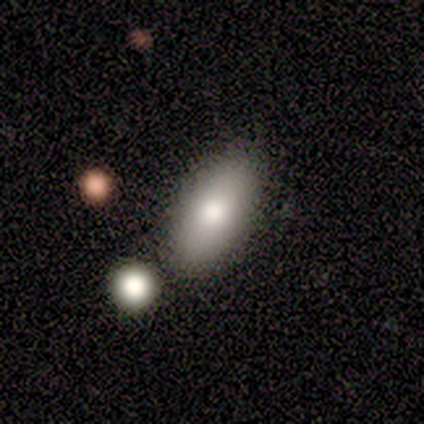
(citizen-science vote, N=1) A smooth galaxy with no disk features (100%) that is in between round and cigar-shaped (100%). Merging: none (100%).